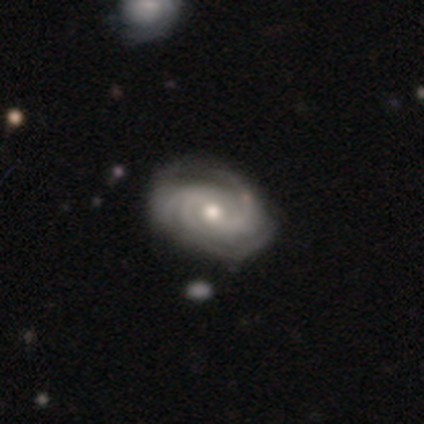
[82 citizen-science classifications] A featured or disk galaxy (93%) with no bar (55%), 3 (51%) tight (67%) spiral arms (100%) and a moderate central bulge (62%). Merging: none (70%).